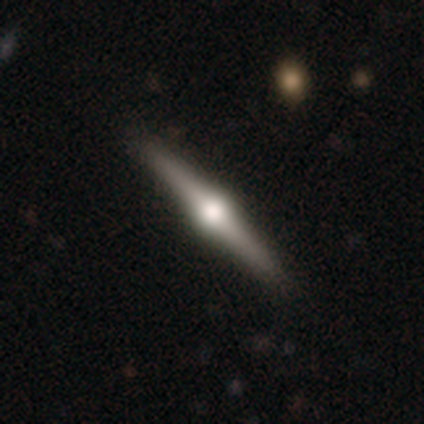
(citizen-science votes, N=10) Smooth or featured: featured or disk — 80% (smooth — 10%)
Edge-on disk: yes — 88% (no — 12%)
Edge-on bulge: rounded — 100%
Merging: none — 89% (minor disturbance — 11%)